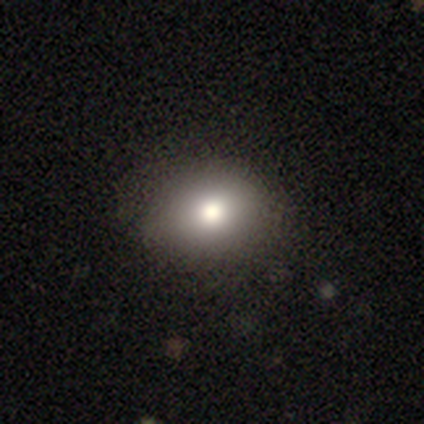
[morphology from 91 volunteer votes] This appears to be a smooth galaxy with no disk features (82%) that is round (55%). Merging: none (81%).